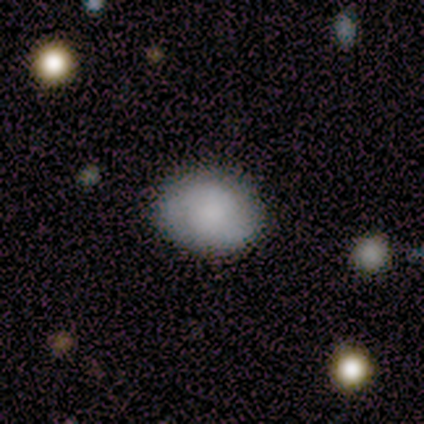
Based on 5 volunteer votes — Morphology: type=smooth (80%); roundness=in between (75%); merging=none (100%).